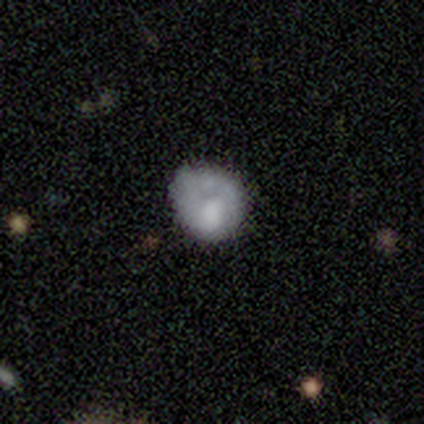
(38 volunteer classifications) smooth-or-featured: smooth: 58% | featured or disk: 32% | star or artifact: 11%
  how-rounded: round: 91% | in between: 9% | cigar-shaped: 0%
  merging: none: 32% | minor disturbance: 18% | major disturbance: 12% | merger: 6%